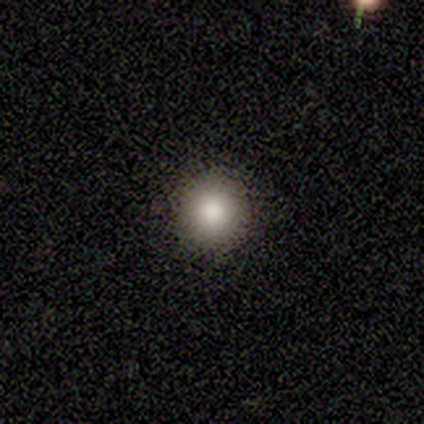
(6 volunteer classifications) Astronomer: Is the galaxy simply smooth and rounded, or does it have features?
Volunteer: smooth — 83%.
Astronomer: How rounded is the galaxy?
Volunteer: round — 100%.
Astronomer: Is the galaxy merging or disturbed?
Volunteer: none — 100%.